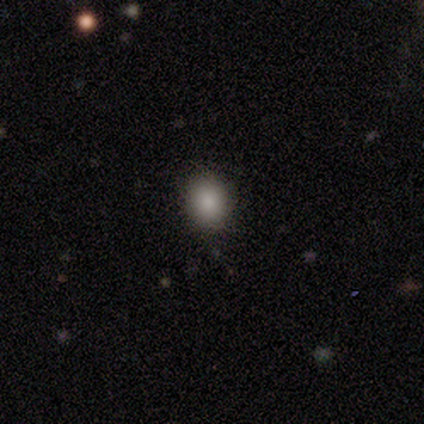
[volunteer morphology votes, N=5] A smooth galaxy with no disk features (80%) that is round (100%). Merging: none (100%).